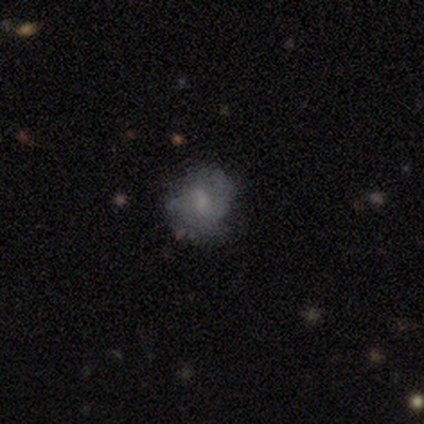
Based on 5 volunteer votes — Smooth or featured?
  - smooth: 40% * (tied)
  - featured or disk: 40% * (tied)
  - star or artifact: 20%
How rounded?
  - round: 100% *
  - in between: 0%
  - cigar-shaped: 0%
Merging?
  - none: 50% * (tied)
  - minor disturbance: 50% * (tied)
  - major disturbance: 0%
  - merger: 0%